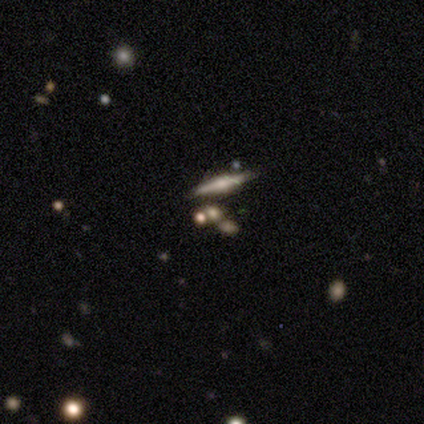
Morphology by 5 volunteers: Smooth or featured? featured or disk (60%)
Edge-on disk? yes (100%)
Edge-on bulge? rounded (67%)
Merging? none (100%)